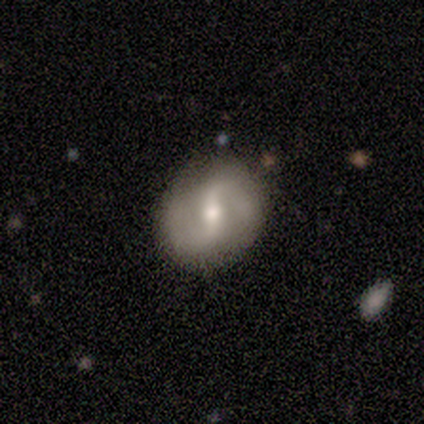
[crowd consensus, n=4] This appears to be a featured or disk galaxy (100%) with a strong bar (50%, tied with weak), 2 (100%) medium (50%, tied with loose) spiral arms (100%) and a moderate central bulge (50%, tied with small). Merging: none (100%).